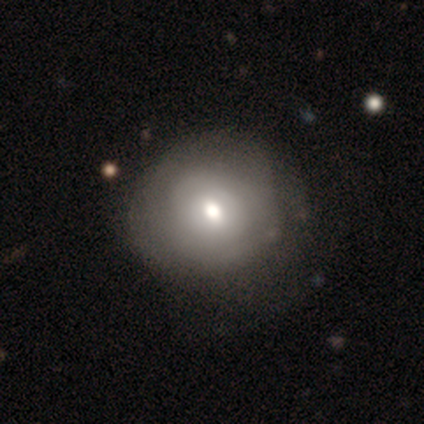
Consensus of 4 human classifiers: Smooth or featured?
  - smooth: 50% *
  - featured or disk: 25%
  - star or artifact: 25%
How rounded?
  - round: 100% *
  - in between: 0%
  - cigar-shaped: 0%
Merging?
  - none: 100% *
  - minor disturbance: 0%
  - major disturbance: 0%
  - merger: 0%